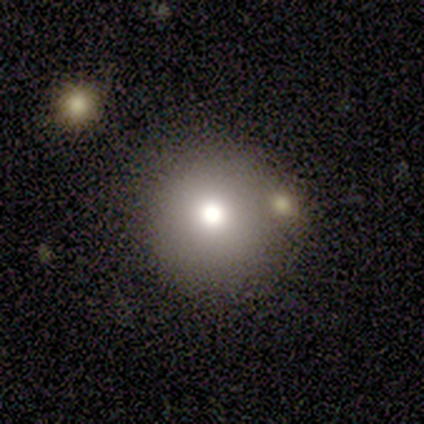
smooth-or-featured: smooth: 60% | featured or disk: 20% | star or artifact: 20%
  how-rounded: round: 100% | in between: 0% | cigar-shaped: 0%
  merging: none: 75% | merger: 25% | minor disturbance: 0% | major disturbance: 0%